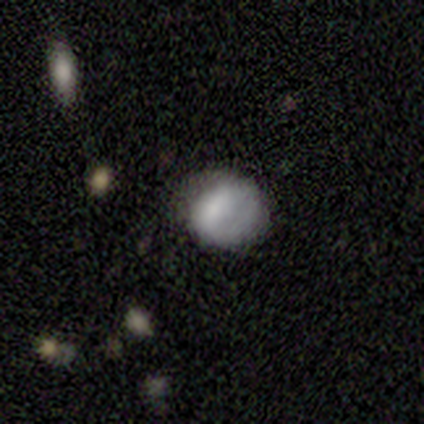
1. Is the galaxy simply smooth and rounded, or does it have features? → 75% smooth, 25% featured or disk, 0% star or artifact.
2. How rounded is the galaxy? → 100% round, 0% in between, 0% cigar-shaped.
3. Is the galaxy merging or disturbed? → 50% none, 25% minor disturbance, 25% major disturbance, 0% merger.